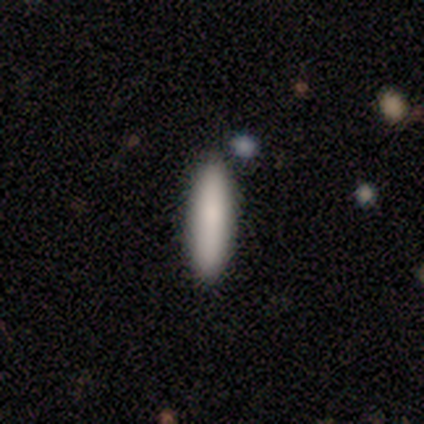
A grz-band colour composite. It shows a smooth galaxy with no disk features (92%) that is cigar-shaped (75%). Merging: none (100%).